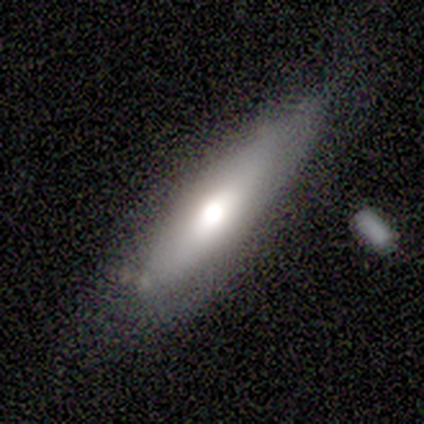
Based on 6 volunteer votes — This appears to be a featured or disk galaxy (50%) viewed edge-on (67%) with no central bulge (50%, tied with rounded). Merging: none (60%).